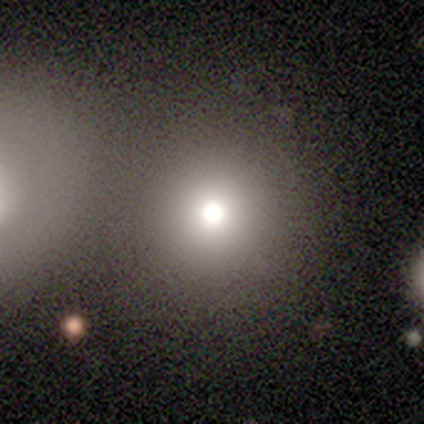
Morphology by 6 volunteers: Smooth or featured: smooth — 83% (star or artifact — 17%)
How rounded: round — 100%
Merging: none — 80% (merger — 20%)